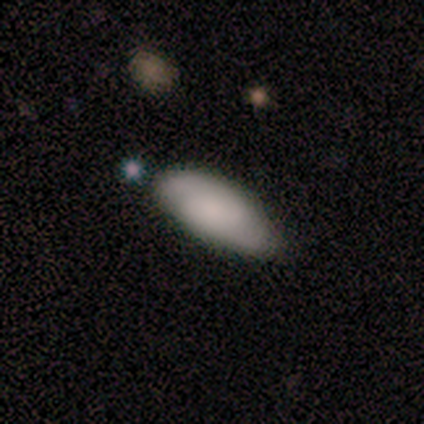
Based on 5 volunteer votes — This is clearly a smooth galaxy (80%). How rounded: likely in between (75%). Merging: clearly none (80%).